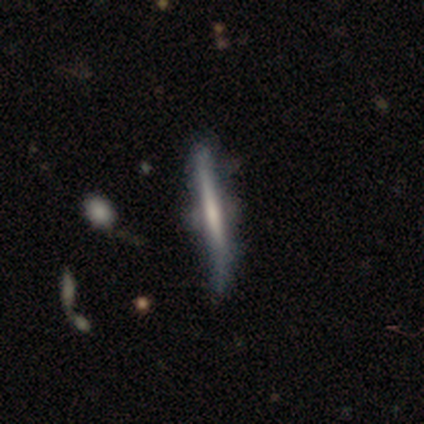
Volunteers were most divided on "edge-on bulge": none: 75%, boxy: 25%, rounded: 0%. More confident: smooth or featured — featured or disk (100%); edge-on disk — yes (100%); merging — none (75%).